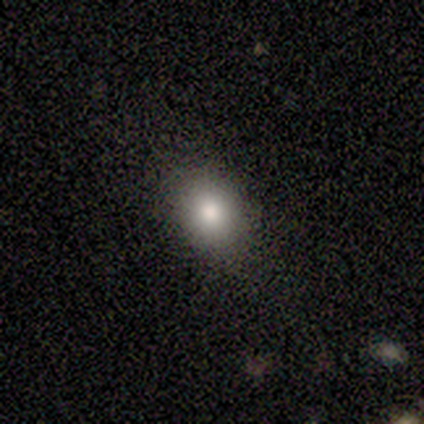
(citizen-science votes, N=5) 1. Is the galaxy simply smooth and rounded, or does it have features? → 60% smooth, 40% featured or disk, 0% star or artifact.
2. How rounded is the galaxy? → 67% round, 33% in between, 0% cigar-shaped.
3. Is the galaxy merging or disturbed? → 100% none, 0% minor disturbance, 0% major disturbance, 0% merger.